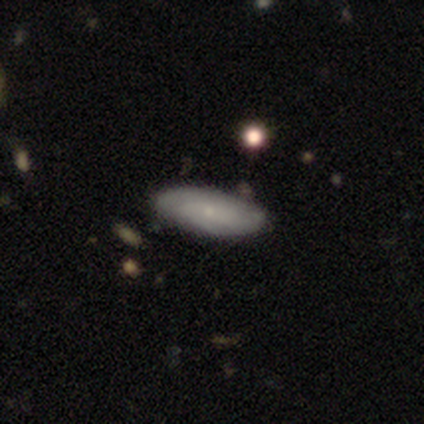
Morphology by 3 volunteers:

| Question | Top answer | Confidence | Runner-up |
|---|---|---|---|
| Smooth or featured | featured or disk | 67% | smooth (33%) |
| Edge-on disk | no | 100% | — |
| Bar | weak | 100% | — |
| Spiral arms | yes | 100% | — |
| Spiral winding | tight | 100% | — |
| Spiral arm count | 2 | 50% | tied: 3 (50%) |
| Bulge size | moderate | 50% | tied: small (50%) |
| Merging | none | 100% | — |